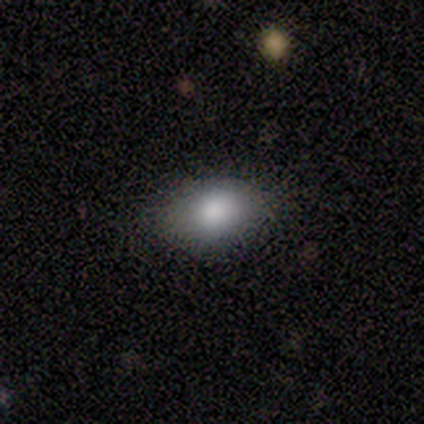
Morphology: type=smooth (75%); roundness=in between (100%); merging=none (75%).